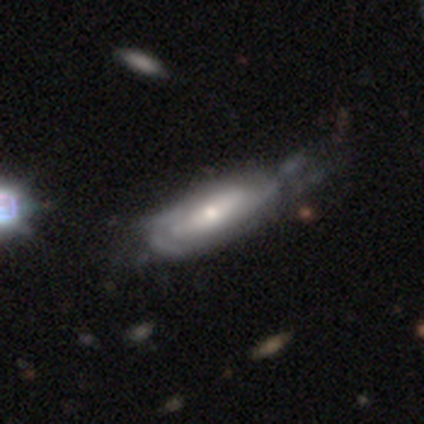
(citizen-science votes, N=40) A featured or disk galaxy (72%) with no bar (69%), tight (57%) spiral arms (81%) and a moderate central bulge (58%).

Vote fractions:
- Smooth or featured? featured or disk: 72% / smooth: 28% / star or artifact: 0%
- Edge-on disk? no: 90% / yes: 10%
- Bar? no: 69% / weak: 19% / strong: 12%
- Spiral arms? yes: 81% / no: 19%
- Spiral winding? tight: 57% / medium: 29% / loose: 14%
- Spiral arm count? can't tell: 62% / 2: 19% / 3: 10% / 1: 5% / 4: 5% / more than 4: 0%
- Bulge size? moderate: 58% / small: 38% / large: 4% / dominant: 0% / none: 0%
- Merging? major disturbance: 30% / minor disturbance: 28% / none: 20% / merger: 0%